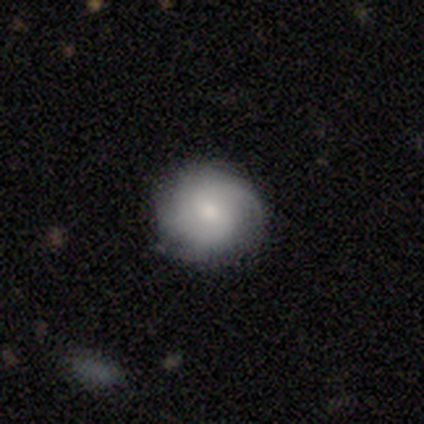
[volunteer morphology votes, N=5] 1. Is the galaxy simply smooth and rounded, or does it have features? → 80% featured or disk, 20% smooth, 0% star or artifact.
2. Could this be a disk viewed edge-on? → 100% no, 0% yes.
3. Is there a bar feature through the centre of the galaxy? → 75% no, 25% weak, 0% strong.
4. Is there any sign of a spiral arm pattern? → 100% yes, 0% no.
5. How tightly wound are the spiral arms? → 75% tight, 25% loose, 0% medium.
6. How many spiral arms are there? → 50% 2 (tied), 50% can't tell (tied), 0% 1, 0% 3, 0% 4, 0% more than 4.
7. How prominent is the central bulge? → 50% small, 25% large, 25% moderate, 0% dominant, 0% none.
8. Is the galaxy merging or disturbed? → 80% none, 20% minor disturbance, 0% major disturbance, 0% merger.